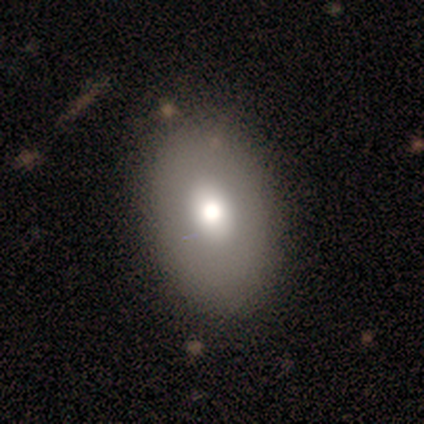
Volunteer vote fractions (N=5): A smooth galaxy with no disk features (80%) that is in between round and cigar-shaped (100%). Merging: none (100%).